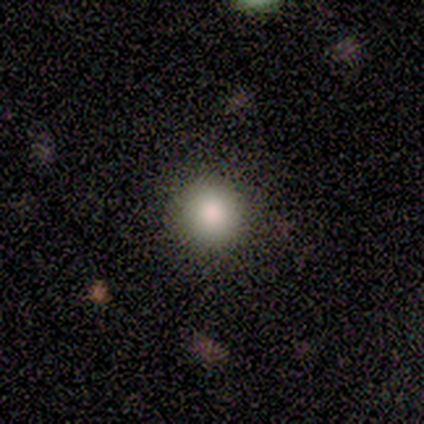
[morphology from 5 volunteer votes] type=smooth (60%); roundness=round (100%); merging=none (100%).